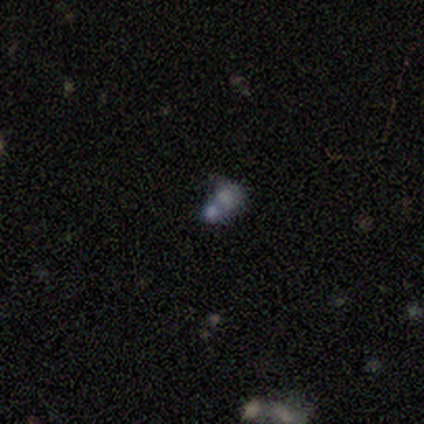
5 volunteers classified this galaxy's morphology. Overall: smooth (60%; featured or disk 20%). How rounded: round (67%; in between 33%). Merging: merger (75%).